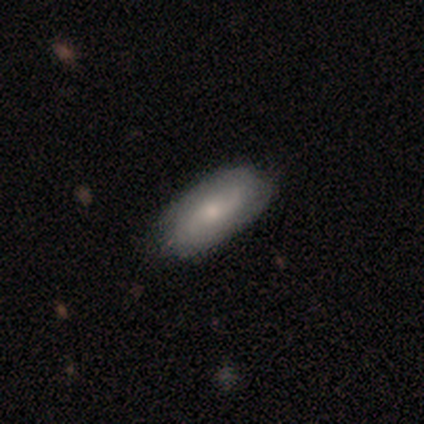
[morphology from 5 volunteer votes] type=featured or disk (60%); edge-on=no (100%); bar=no (67%); spiral arms=yes (67%); winding=tight (50%, tied with medium); arm count=2 (100%); bulge=moderate (67%); merging=none (100%).